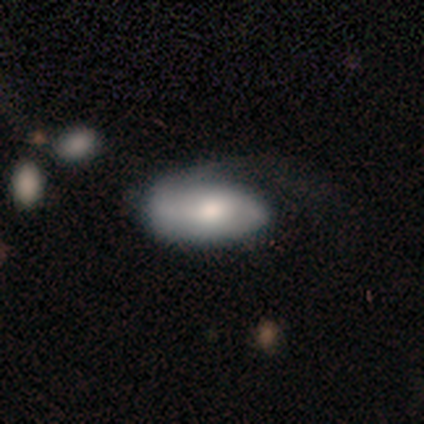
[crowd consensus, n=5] Volunteers were most divided on "merging" (2-way tie): none: 40%, major disturbance: 40%, minor disturbance: 20%, merger: 0%. More confident: how rounded — in between (100%); smooth or featured — smooth (80%).